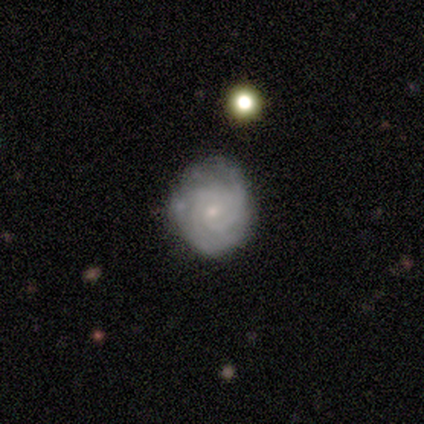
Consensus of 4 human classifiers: Volunteers were most divided on "bar": no: 67%, weak: 33%, strong: 0%. More confident: edge-on disk — no (100%); spiral arms — yes (100%); spiral winding — tight (100%); bulge size — small (100%); smooth or featured — featured or disk (75%); spiral arm count — can't tell (67%); merging — none (67%).